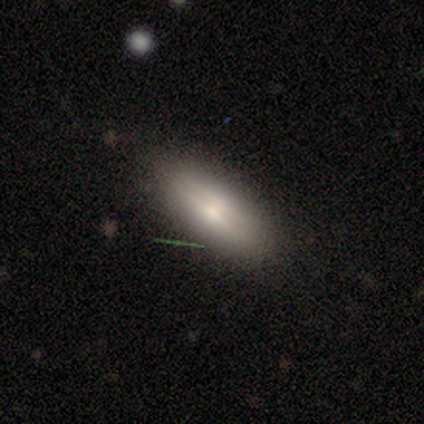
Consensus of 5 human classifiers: Smooth or featured? smooth (60%)
How rounded? cigar-shaped (100%)
Merging? none (60%)